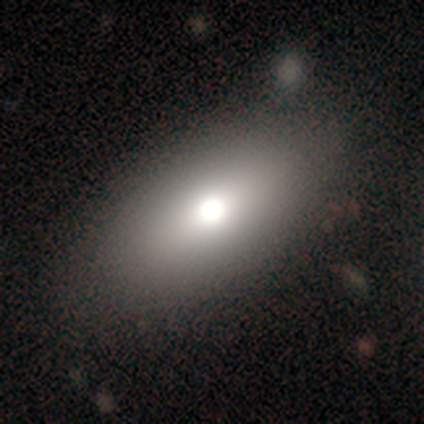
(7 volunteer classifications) Volunteers were most divided on "smooth or featured": smooth: 57%, featured or disk: 43%, star or artifact: 0%. More confident: how rounded — in between (75%); merging — none (71%).